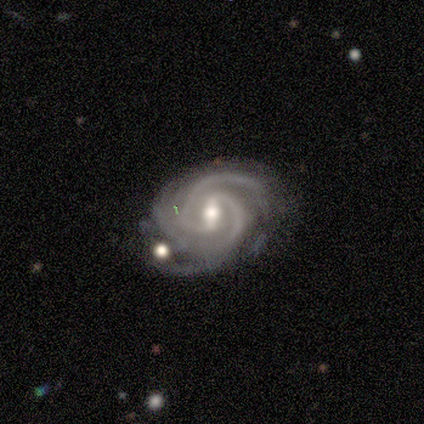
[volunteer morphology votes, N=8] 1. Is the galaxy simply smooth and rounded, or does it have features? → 100% featured or disk, 0% smooth, 0% star or artifact.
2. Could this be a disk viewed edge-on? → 100% no, 0% yes.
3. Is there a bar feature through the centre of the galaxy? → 62% weak, 38% strong, 0% no.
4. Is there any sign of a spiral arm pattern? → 100% yes, 0% no.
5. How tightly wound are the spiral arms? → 75% tight, 25% medium, 0% loose.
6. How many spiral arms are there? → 88% 2, 12% 3, 0% 1, 0% 4, 0% more than 4, 0% can't tell.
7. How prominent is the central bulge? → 88% moderate, 12% small, 0% dominant, 0% large, 0% none.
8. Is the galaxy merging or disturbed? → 75% none, 12% minor disturbance, 12% merger, 0% major disturbance.